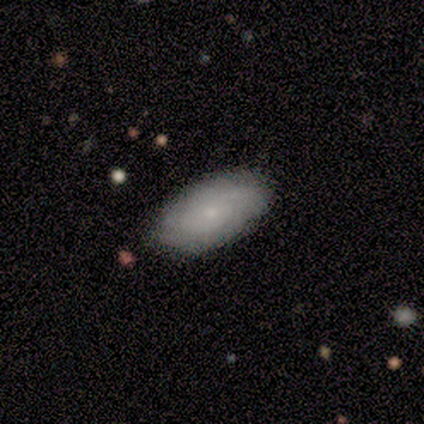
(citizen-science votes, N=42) Volunteers were most divided on "smooth or featured": smooth: 69%, featured or disk: 29%, star or artifact: 2%. More confident: how rounded — in between (93%); merging — none (85%).